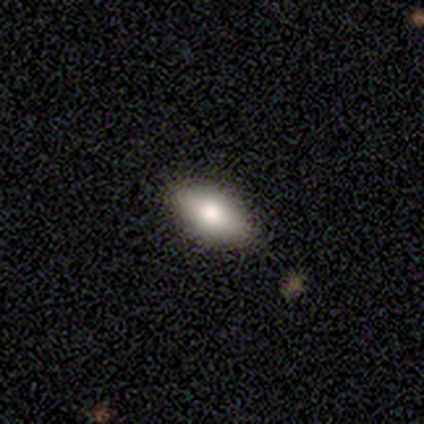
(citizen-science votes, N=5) Q: Smooth or featured?
A: smooth (100%)
Q: How rounded?
A: in between (80%); runner-up: round (20%)
Q: Merging?
A: none (80%); runner-up: minor disturbance (20%)